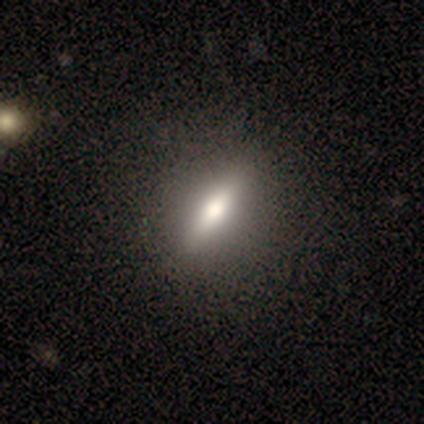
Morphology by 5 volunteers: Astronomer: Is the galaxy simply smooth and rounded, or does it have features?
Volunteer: smooth — 40%, tied with featured or disk at 40%.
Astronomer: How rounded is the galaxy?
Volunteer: cigar-shaped — 100%.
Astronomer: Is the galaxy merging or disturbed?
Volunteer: none — 75%.